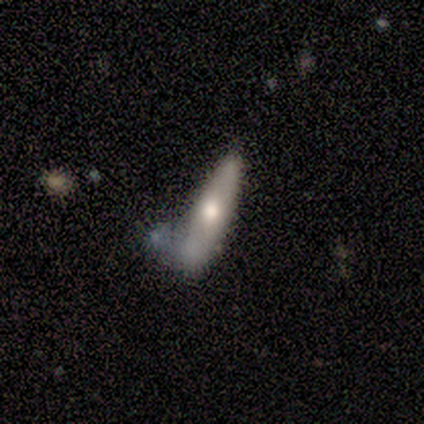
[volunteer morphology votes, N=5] Overall: smooth (100%). How rounded: in between (60%; cigar-shaped 40%). Merging: merger (60%; none 40%).